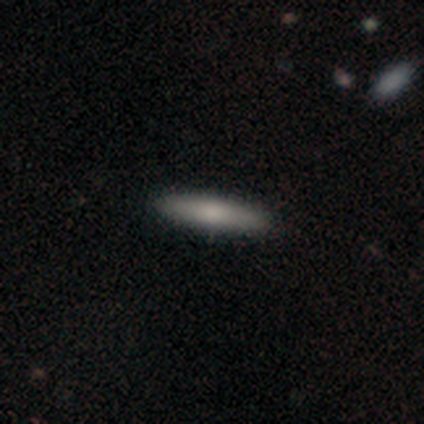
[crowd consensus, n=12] Smooth or featured: smooth — 83% (featured or disk — 17%)
How rounded: cigar-shaped — 70% (in between — 30%)
Merging: none — 100%